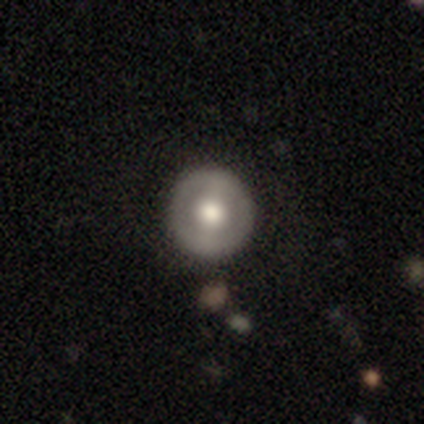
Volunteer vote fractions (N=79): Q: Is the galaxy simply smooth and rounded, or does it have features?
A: smooth — 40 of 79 (51%).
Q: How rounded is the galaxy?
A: round — 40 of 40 (100%).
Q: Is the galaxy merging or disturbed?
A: none — 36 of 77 (47%).